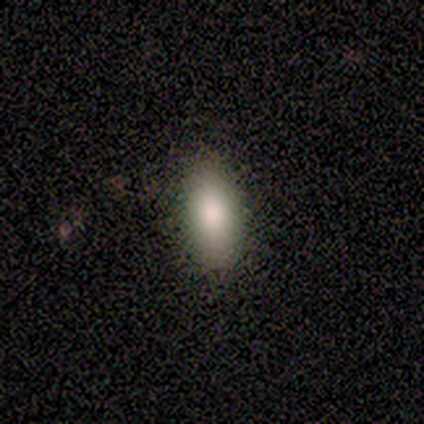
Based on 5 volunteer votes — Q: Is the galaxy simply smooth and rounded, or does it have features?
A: smooth — 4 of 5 (80%).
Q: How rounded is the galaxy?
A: in between — 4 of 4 (100%).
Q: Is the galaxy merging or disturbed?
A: none — 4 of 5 (80%).